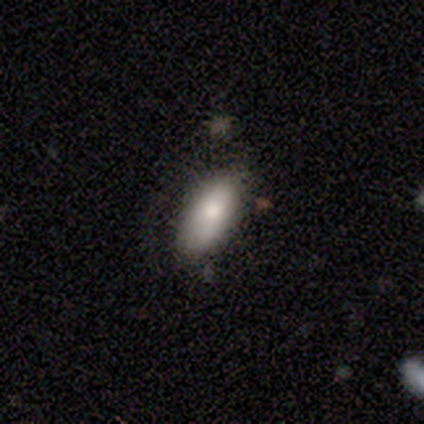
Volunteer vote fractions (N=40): Smooth or featured? smooth (78%)
How rounded? in between (90%)
Merging? none (68%)